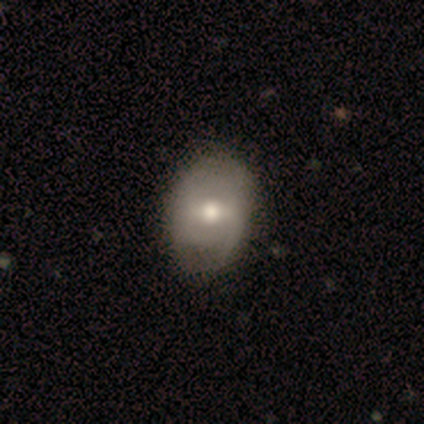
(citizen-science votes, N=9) Smooth or featured? 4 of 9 (44%) said smooth. How rounded? 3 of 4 (75%) said in between. Merging? 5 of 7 (71%) said none.